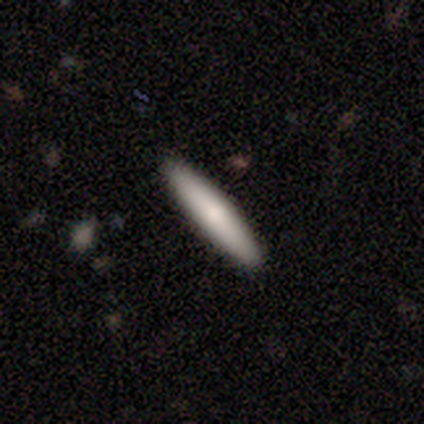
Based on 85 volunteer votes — This is likely a smooth galaxy (79%). How rounded: clearly cigar-shaped (93%). Merging: clearly none (95%).